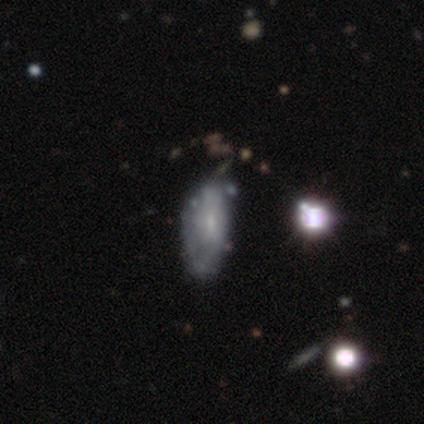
A featured or disk galaxy (67%) with no bar (54%), no spiral arms (58%) and a small central bulge (54%).

Vote fractions:
- Smooth or featured? featured or disk: 67% / smooth: 26% / star or artifact: 7%
- Edge-on disk? no: 90% / yes: 10%
- Bar? no: 54% / weak: 35% / strong: 12%
- Spiral arms? no: 58% / yes: 42%
- Bulge size? small: 54% / none: 23% / moderate: 19% / large: 4% / dominant: 0%
- Merging? none: 48% / minor disturbance: 30% / major disturbance: 18% / merger: 5%